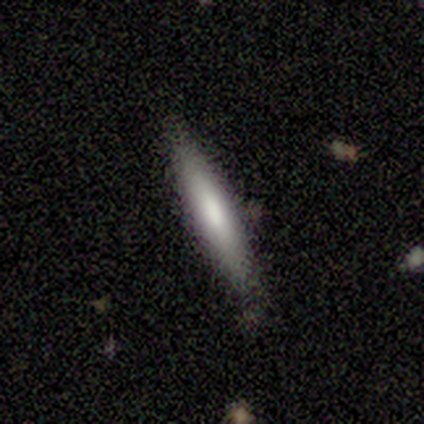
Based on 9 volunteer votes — This is likely a smooth galaxy (67%). How rounded: clearly cigar-shaped (100%). Merging: clearly none (89%).